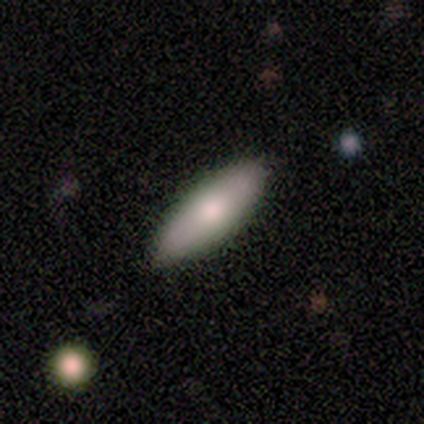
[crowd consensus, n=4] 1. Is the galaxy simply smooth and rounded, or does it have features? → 75% smooth, 25% featured or disk, 0% star or artifact.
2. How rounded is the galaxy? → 100% cigar-shaped, 0% round, 0% in between.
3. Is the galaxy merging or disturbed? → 75% none, 25% minor disturbance, 0% major disturbance, 0% merger.